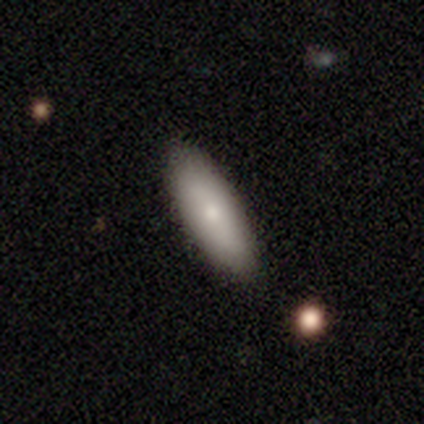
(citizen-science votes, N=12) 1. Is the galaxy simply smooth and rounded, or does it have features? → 75% smooth, 25% featured or disk, 0% star or artifact.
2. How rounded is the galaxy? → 56% in between, 44% cigar-shaped, 0% round.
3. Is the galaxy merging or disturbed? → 100% none, 0% minor disturbance, 0% major disturbance, 0% merger.